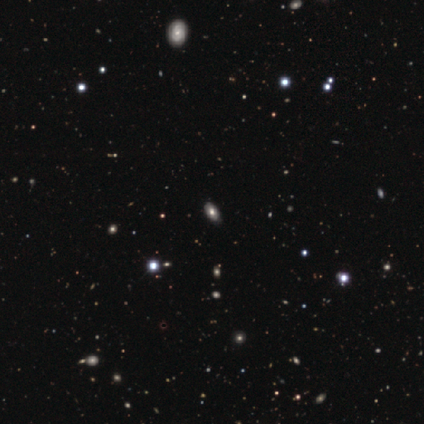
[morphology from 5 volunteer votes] A smooth galaxy with no disk features (60%) that is in between round and cigar-shaped (100%). Merging: none (67%).